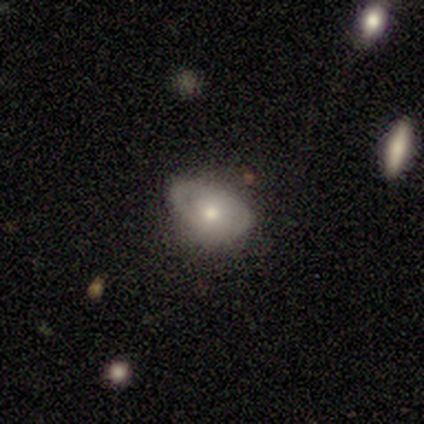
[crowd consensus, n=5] Morphology: type=featured or disk (60%); edge-on=no (100%); bar=no (67%); spiral arms=no (67%); bulge=small (67%); merging=none (60%).